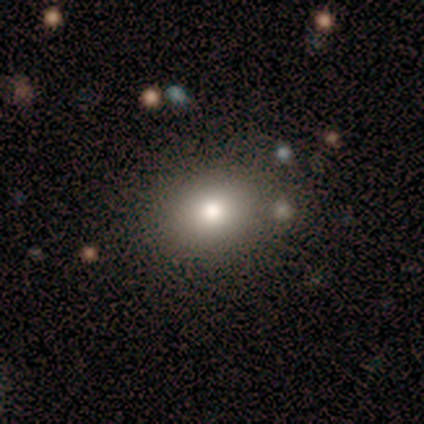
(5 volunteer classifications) This appears to be a smooth galaxy with no disk features (80%) that is round (75%). Merging: none (40%, tied with minor disturbance).